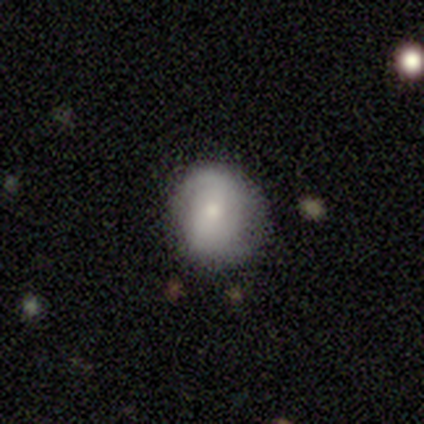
smooth-or-featured: smooth: 52% | featured or disk: 45% | star or artifact: 2%
  how-rounded: round: 62% | in between: 38% | cigar-shaped: 0%
  merging: none: 74% | minor disturbance: 23% | major disturbance: 3% | merger: 0%